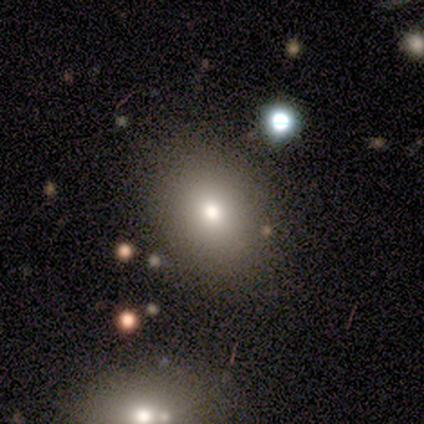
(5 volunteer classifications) Smooth or featured: smooth — 80% (star or artifact — 20%)
How rounded: in between — 100%
Merging: none — 100%